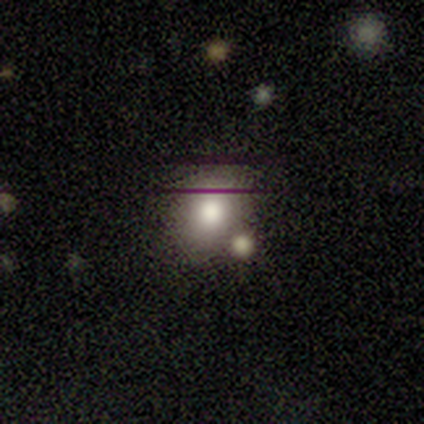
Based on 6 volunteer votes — smooth_or_featured: smooth (p=0.83) [alt: featured or disk p=0.17]
how_rounded: in between (p=0.60) [alt: round p=0.40]
merging: none (p=0.50) [tied with: merger p=0.50]